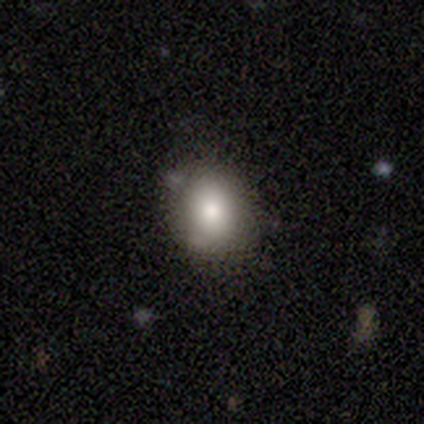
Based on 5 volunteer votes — A smooth galaxy with no disk features (60%) that is round (67%). Merging: none (75%).